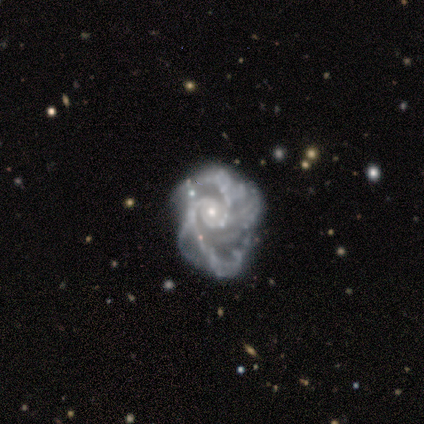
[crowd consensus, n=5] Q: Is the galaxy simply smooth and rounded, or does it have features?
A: featured or disk — 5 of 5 (100%).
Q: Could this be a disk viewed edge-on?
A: no — 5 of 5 (100%).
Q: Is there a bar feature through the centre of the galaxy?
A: no — 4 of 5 (80%).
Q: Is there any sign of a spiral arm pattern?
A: yes — 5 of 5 (100%).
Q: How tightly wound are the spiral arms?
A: medium — 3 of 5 (60%).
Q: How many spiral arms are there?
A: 2 — 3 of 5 (60%).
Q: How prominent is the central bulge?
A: small — 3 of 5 (60%).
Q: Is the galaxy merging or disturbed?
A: none — 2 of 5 (40%).